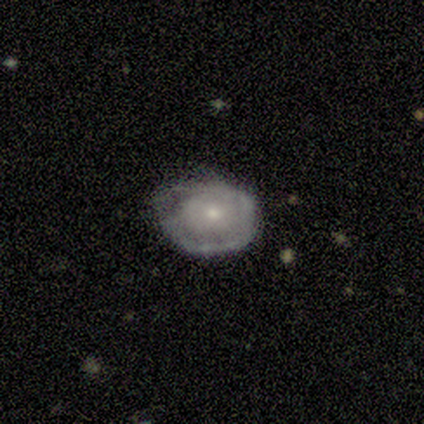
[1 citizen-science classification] A smooth galaxy with no disk features (100%) that is round (100%). Merging: none (100%).